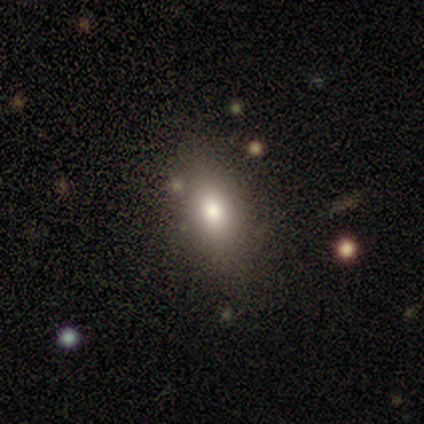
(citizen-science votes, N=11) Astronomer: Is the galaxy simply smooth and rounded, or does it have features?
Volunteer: smooth — 91%.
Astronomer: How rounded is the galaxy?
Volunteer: in between — 80%.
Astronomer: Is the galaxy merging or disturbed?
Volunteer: none — 82%.